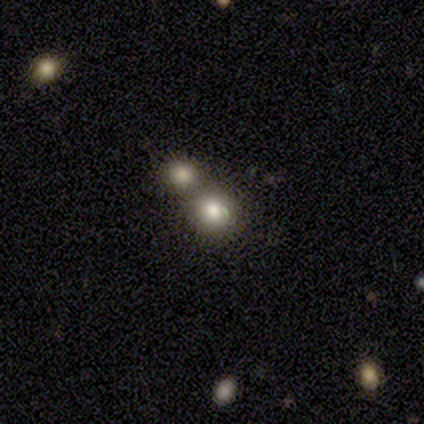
Morphology: type=smooth (75%); roundness=round (67%); merging=none (50%, tied with merger).